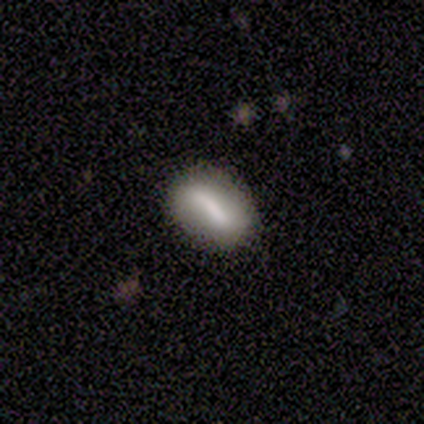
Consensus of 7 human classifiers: smooth-or-featured: smooth: 86% | star or artifact: 14% | featured or disk: 0%
  how-rounded: in between: 83% | cigar-shaped: 17% | round: 0%
  merging: none: 83% | merger: 17% | minor disturbance: 0% | major disturbance: 0%